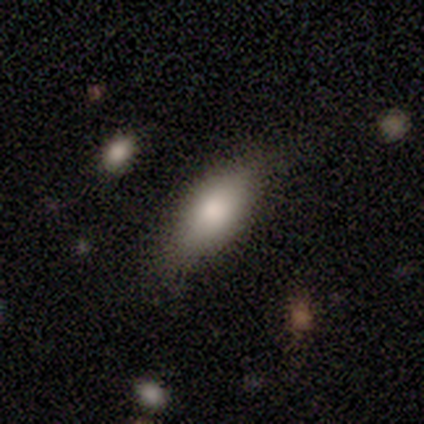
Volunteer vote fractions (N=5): Overall: smooth (80%). How rounded: in between (100%). Merging: none (60%; minor disturbance 40%).